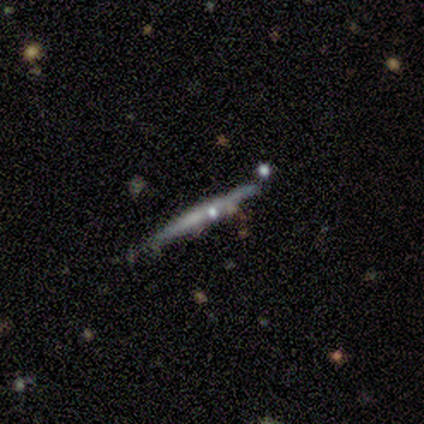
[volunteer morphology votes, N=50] Smooth or featured: featured or disk — 78% (smooth — 18%)
Edge-on disk: yes — 100%
Edge-on bulge: none — 79% (rounded — 18%)
Merging: none — 56% (minor disturbance — 27%)